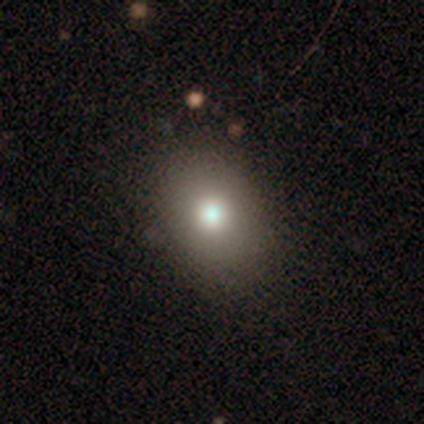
Volunteers were most divided on "how rounded": in between: 74%, round: 26%, cigar-shaped: 0%. More confident: smooth or featured — smooth (69%); merging — none (58%).